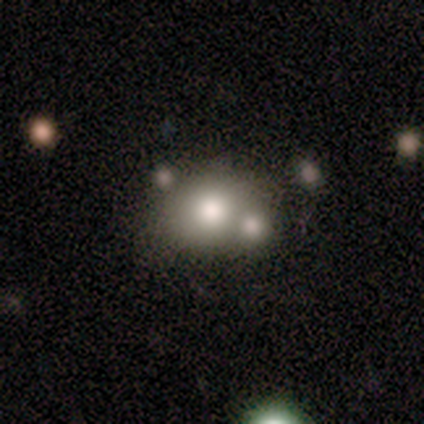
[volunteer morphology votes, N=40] This is likely a smooth galaxy (60%). How rounded: likely round (67%). Merging: possibly merger (47%).